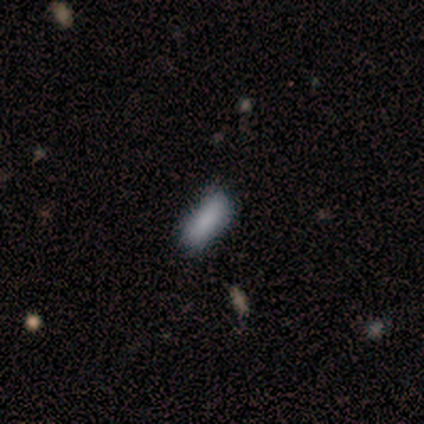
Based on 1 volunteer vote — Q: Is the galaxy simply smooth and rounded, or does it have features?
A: smooth — 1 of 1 (100%).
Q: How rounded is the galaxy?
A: in between — 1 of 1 (100%).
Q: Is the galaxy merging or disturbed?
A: none — 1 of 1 (100%).